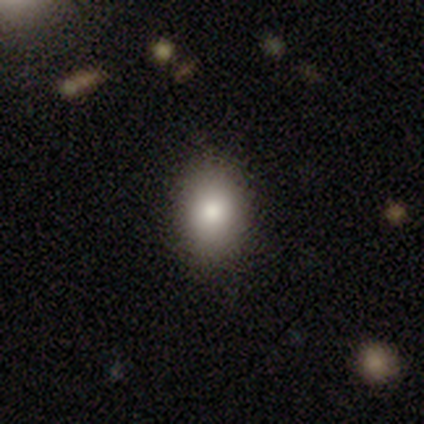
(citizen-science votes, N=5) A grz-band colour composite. It shows a smooth galaxy with no disk features (80%) that is round (50%, tied with in between). Merging: none (80%).